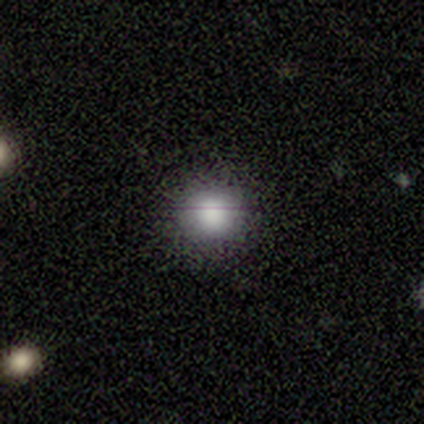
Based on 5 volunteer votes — Q: Smooth or featured?
A: smooth (60%); runner-up: featured or disk (20%)
Q: How rounded?
A: round (100%)
Q: Merging?
A: none (100%)